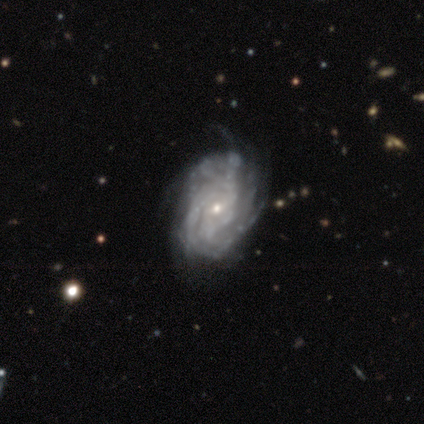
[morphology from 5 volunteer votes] smooth-or-featured: featured or disk: 100% | smooth: 0% | star or artifact: 0%
  disk-edge-on: no: 100% | yes: 0%
    bar: weak: 40% (tied) | no: 40% (tied) | strong: 20%
    has-spiral-arms: yes: 100% | no: 0%
      spiral-winding: tight: 40% (tied) | medium: 40% (tied) | loose: 20%
      spiral-arm-count: 3: 40% | 4: 20% | more than 4: 20% | can't tell: 20% | 1: 0% | 2: 0%
    bulge-size: small: 100% | dominant: 0% | large: 0% | moderate: 0% | none: 0%
  merging: none: 40% (tied) | minor disturbance: 40% (tied) | major disturbance: 20% | merger: 0%